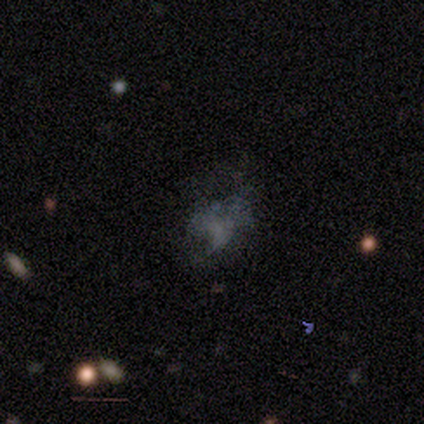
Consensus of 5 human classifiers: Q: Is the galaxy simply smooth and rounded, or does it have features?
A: star or artifact — 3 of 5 (60%).